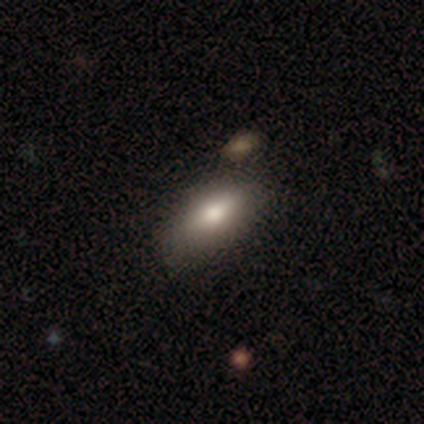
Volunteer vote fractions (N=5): Overall: smooth (80%). How rounded: in between (75%). Merging: none (60%; minor disturbance 20%).